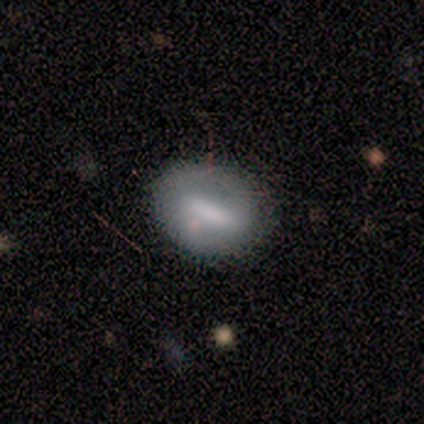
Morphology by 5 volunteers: Smooth or featured: smooth — 80% (featured or disk — 20%)
How rounded: in between — 100%
Merging: none — 80% (minor disturbance — 20%)